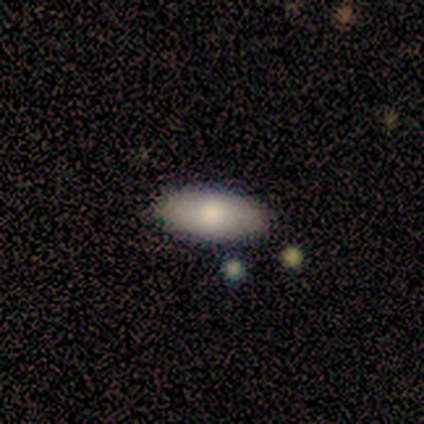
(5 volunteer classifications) Smooth or featured? smooth (100%)
How rounded? in between (100%)
Merging? none (100%)